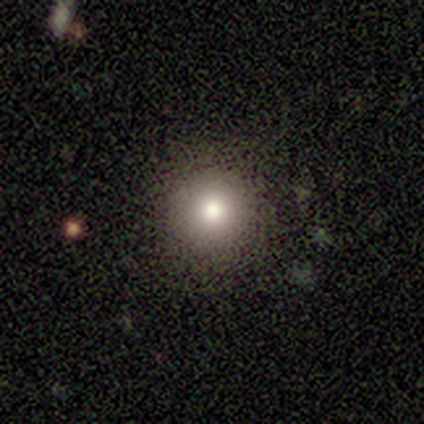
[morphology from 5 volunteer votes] Consensus on every question: smooth or featured — smooth (100%); how rounded — round (100%); merging — none (100%).